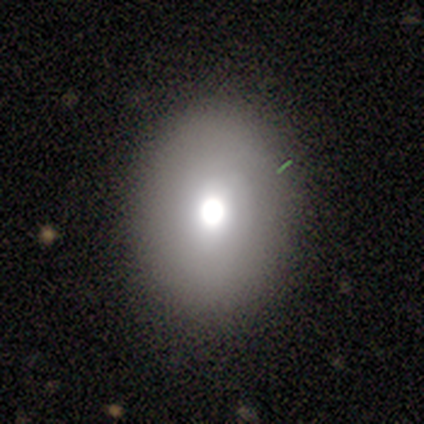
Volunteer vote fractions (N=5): Morphology: type=featured or disk (60%); edge-on=no (67%); bar=no (100%); spiral arms=no (100%); bulge=moderate (100%); merging=none (80%).